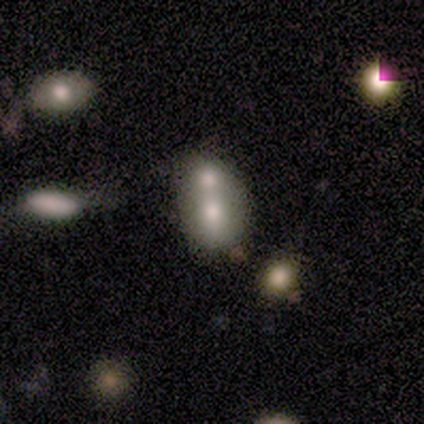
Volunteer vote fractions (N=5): Smooth or featured?
  - smooth: 60% *
  - featured or disk: 20%
  - star or artifact: 20%
How rounded?
  - round: 67% *
  - in between: 33%
  - cigar-shaped: 0%
Merging?
  - merger: 75% *
  - minor disturbance: 25%
  - none: 0%
  - major disturbance: 0%